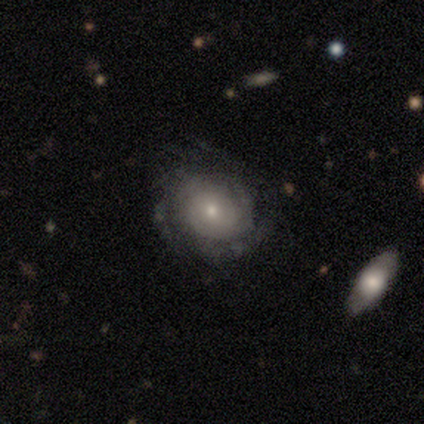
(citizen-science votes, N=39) smooth-or-featured: featured or disk: 72% | smooth: 21% | star or artifact: 8%
  disk-edge-on: no: 100% | yes: 0%
    bar: no: 89% | weak: 11% | strong: 0%
    has-spiral-arms: yes: 93% | no: 7%
      spiral-winding: tight: 69% | medium: 27% | loose: 4%
      spiral-arm-count: can't tell: 85% | 1: 8% | 2: 4% | 3: 4% | 4: 0% | more than 4: 0%
    bulge-size: small: 50% | moderate: 43% | large: 4% | none: 4% | dominant: 0%
  merging: none: 47% | minor disturbance: 11% | major disturbance: 6% | merger: 3%